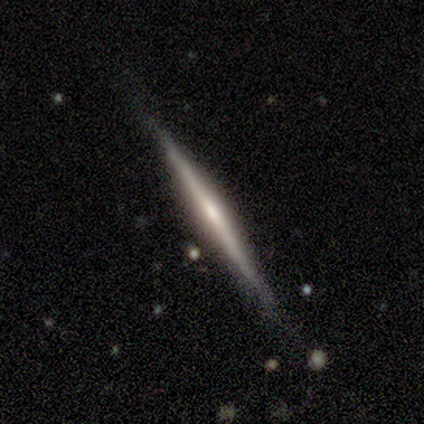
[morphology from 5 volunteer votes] A featured or disk galaxy (60%) viewed edge-on (100%) with a boxy central bulge (33%, tied with none and rounded).

Vote fractions:
- Smooth or featured? featured or disk: 60% / smooth: 40% / star or artifact: 0%
- Edge-on disk? yes: 100% / no: 0%
- Edge-on bulge? boxy: 33% (tied) / none: 33% (tied) / rounded: 33% (tied)
- Merging? none: 80% / minor disturbance: 20% / major disturbance: 0% / merger: 0%